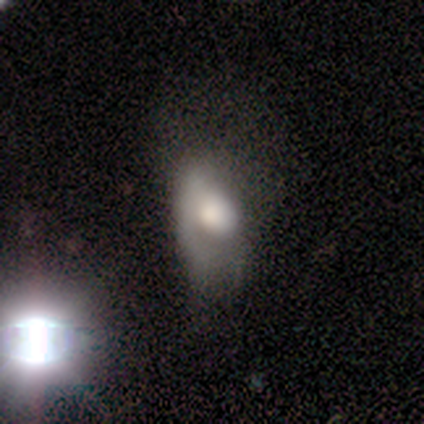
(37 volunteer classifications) Smooth or featured: smooth — 51% (featured or disk — 35%)
How rounded: in between — 95% (round — 5%)
Merging: major disturbance — 50% (minor disturbance — 34%)